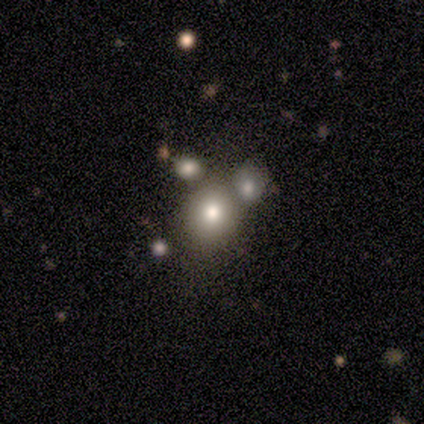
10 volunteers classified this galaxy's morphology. Smooth or featured: smooth — 80% (featured or disk — 10%)
How rounded: round — 50% (tied with in between — 50%)
Merging: none — 56% (minor disturbance — 33%)